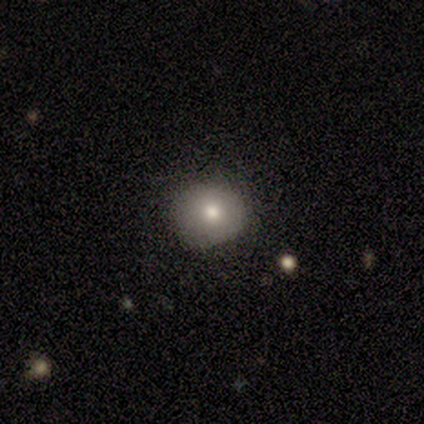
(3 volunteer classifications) Morphology: type=smooth (100%); roundness=round (100%); merging=none (100%).